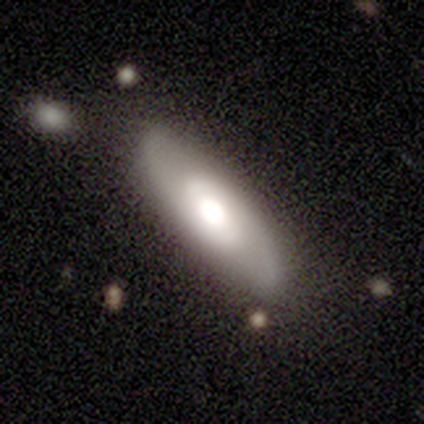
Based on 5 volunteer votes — Overall: smooth (80%). How rounded: in between (50%, tied with cigar-shaped). Merging: none (100%).